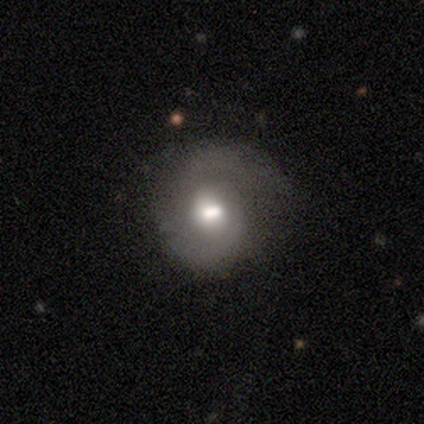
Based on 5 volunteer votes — smooth-or-featured: smooth: 40% (tied) | featured or disk: 40% (tied) | star or artifact: 20%
  how-rounded: round: 100% | in between: 0% | cigar-shaped: 0%
  merging: none: 50% | minor disturbance: 25% | major disturbance: 25% | merger: 0%